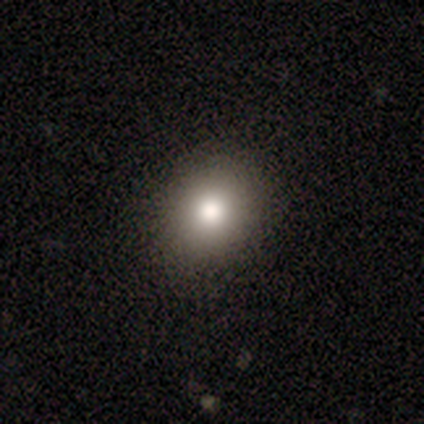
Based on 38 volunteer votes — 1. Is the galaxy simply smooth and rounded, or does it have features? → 71% smooth, 26% star or artifact, 3% featured or disk.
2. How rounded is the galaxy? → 78% round, 19% in between, 4% cigar-shaped.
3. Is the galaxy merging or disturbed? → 82% none, 14% minor disturbance, 4% major disturbance, 0% merger.